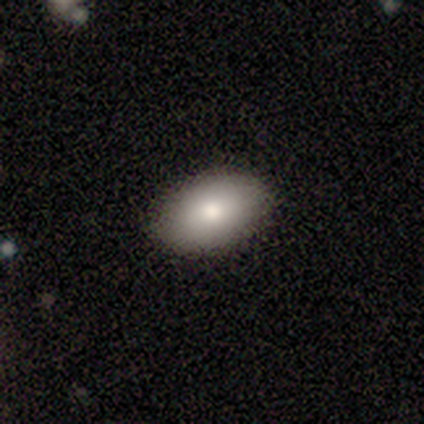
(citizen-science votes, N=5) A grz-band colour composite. It shows a smooth galaxy with no disk features (60%) that is in between round and cigar-shaped (100%). Merging: none (100%).